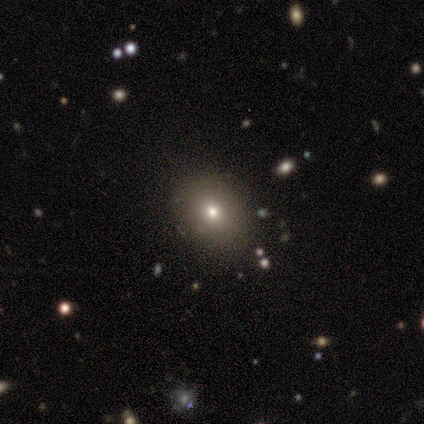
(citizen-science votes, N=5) smooth 80%, featured or disk 20%, star or artifact 0%. Down the decision tree: how rounded — round (75%); merging — none (100%).